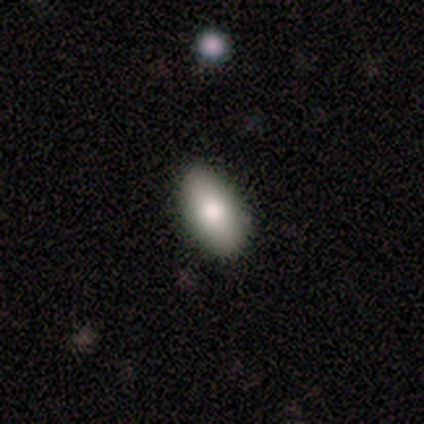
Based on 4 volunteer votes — Consensus on every question: smooth or featured — smooth (100%); how rounded — in between (100%); merging — none (100%).